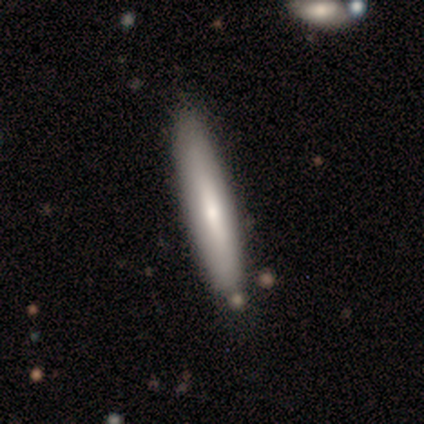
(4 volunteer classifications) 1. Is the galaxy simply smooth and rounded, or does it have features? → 50% smooth (tied), 50% featured or disk (tied), 0% star or artifact.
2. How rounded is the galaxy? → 50% in between (tied), 50% cigar-shaped (tied), 0% round.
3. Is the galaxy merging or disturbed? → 100% none, 0% minor disturbance, 0% major disturbance, 0% merger.